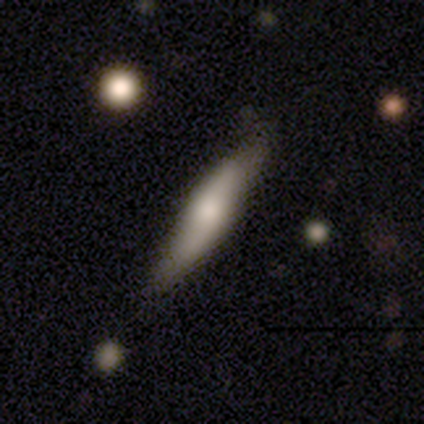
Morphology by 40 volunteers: A smooth galaxy with no disk features (52%) that is cigar-shaped (76%).

Vote fractions:
- Smooth or featured? smooth: 52% / featured or disk: 42% / star or artifact: 5%
- How rounded? cigar-shaped: 76% / in between: 24% / round: 0%
- Merging? none: 45% / minor disturbance: 18% / major disturbance: 11% / merger: 3%